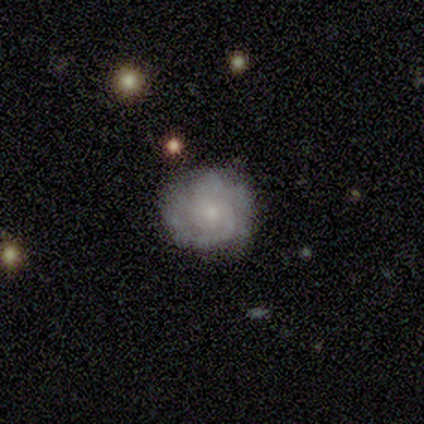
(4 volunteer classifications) Volunteers were most divided on "smooth or featured": featured or disk: 75%, smooth: 25%, star or artifact: 0%. More confident: edge-on disk — no (100%); bar — no (100%); spiral arms — yes (100%); spiral winding — tight (100%); spiral arm count — can't tell (100%); bulge size — small (100%); merging — none (100%).